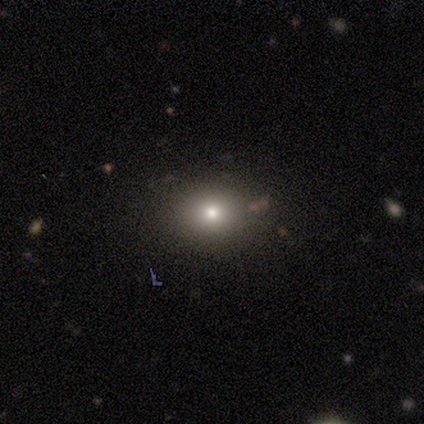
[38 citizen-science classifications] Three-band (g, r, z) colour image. It shows a smooth galaxy with no disk features (74%) that is round (64%). Merging: none (97%).